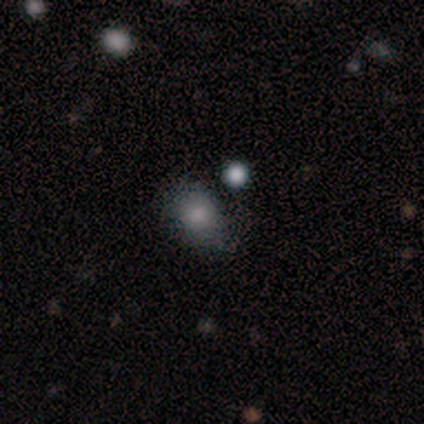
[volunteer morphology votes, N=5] type=smooth (100%); roundness=in between (100%); merging=none (60%).